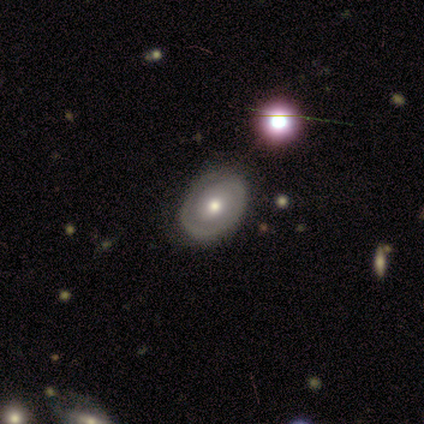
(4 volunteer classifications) Morphology: type=featured or disk (75%); edge-on=no (100%); bar=no (67%); spiral arms=yes (100%); winding=tight (67%); arm count=1 (33%, tied with 2 and can't tell); bulge=moderate (67%); merging=none (100%).